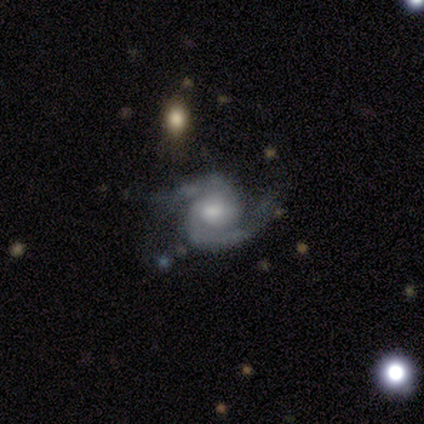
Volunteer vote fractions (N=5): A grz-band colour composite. It shows a featured or disk galaxy (80%) with no bar (75%), 2 (75%) medium (75%) spiral arms (100%) and a moderate central bulge (75%). Merging: none (75%).